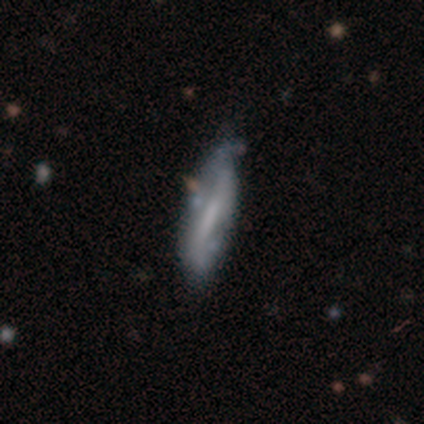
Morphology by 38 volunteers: type=featured or disk (66%); edge-on=no (56%); bar=weak (57%); spiral arms=yes (57%); winding=loose (50%); arm count=2 (62%); bulge=none (64%); merging=none (53%).